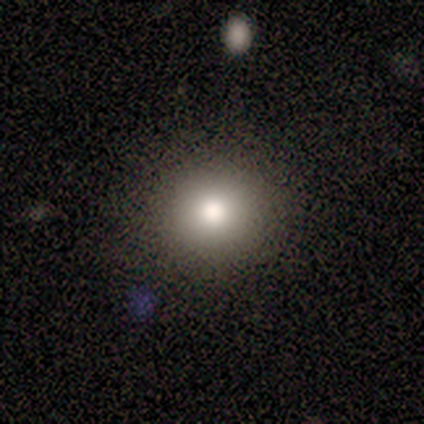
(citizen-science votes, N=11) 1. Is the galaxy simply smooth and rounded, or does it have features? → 64% smooth, 27% featured or disk, 9% star or artifact.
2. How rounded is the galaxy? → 100% round, 0% in between, 0% cigar-shaped.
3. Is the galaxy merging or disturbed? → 90% none, 10% merger, 0% minor disturbance, 0% major disturbance.